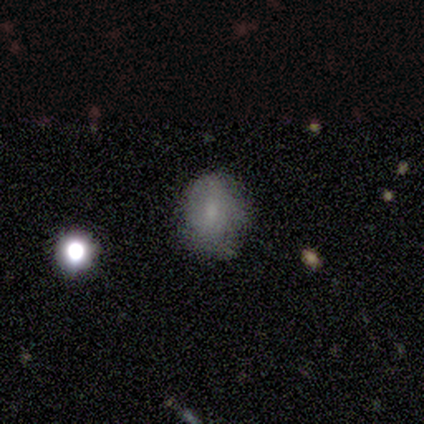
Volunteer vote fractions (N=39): A smooth galaxy with no disk features (74%) that is in between round and cigar-shaped (69%).

Vote fractions:
- Smooth or featured? smooth: 74% / featured or disk: 21% / star or artifact: 5%
- How rounded? in between: 69% / round: 31% / cigar-shaped: 0%
- Merging? none: 65% / minor disturbance: 30% / major disturbance: 5% / merger: 0%